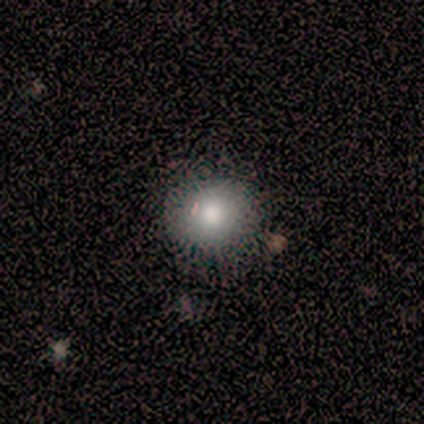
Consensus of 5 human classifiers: A smooth galaxy with no disk features (80%) that is round (100%). Merging: none (100%).